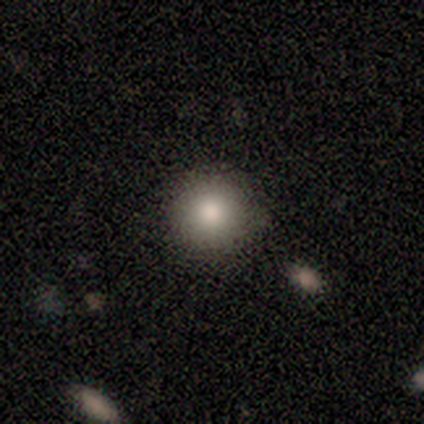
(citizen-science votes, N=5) Smooth or featured? 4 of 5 (80%) said smooth. How rounded? 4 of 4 (100%) said round. Merging? 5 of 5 (100%) said none.